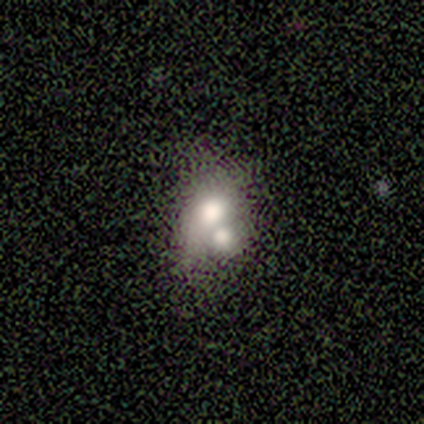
Smooth or featured: smooth — 80% (featured or disk — 20%)
How rounded: round — 50% (tied with in between — 50%)
Merging: merger — 100%